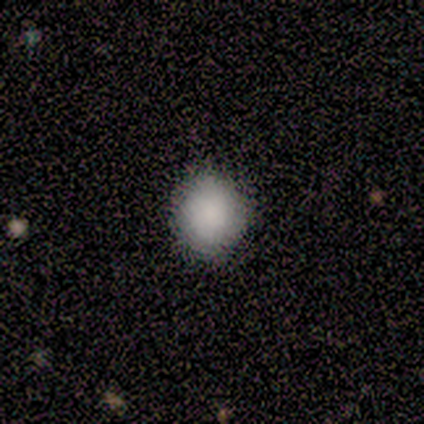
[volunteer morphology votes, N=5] This appears to be a smooth galaxy with no disk features (80%) that is round (100%). Merging: none (75%).